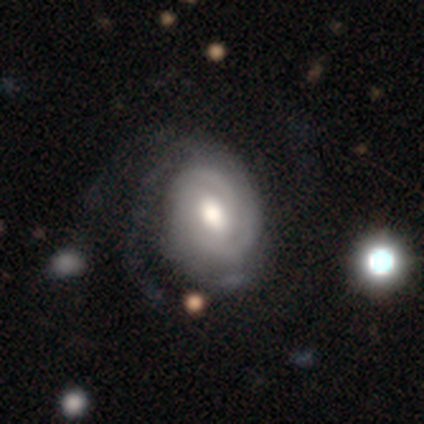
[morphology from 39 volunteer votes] A featured or disk galaxy (82%) with no bar (50%), 2 (45%) tight (58%) spiral arms (97%) and a moderate central bulge (62%).

Vote fractions:
- Smooth or featured? featured or disk: 82% / smooth: 15% / star or artifact: 3%
- Edge-on disk? no: 100% / yes: 0%
- Bar? no: 50% / weak: 44% / strong: 6%
- Spiral arms? yes: 97% / no: 3%
- Spiral winding? tight: 58% / medium: 32% / loose: 10%
- Spiral arm count? 2: 45% / 3: 26% / can't tell: 19% / 1: 3% / 4: 3% / more than 4: 3%
- Bulge size? moderate: 62% / large: 31% / dominant: 3% / small: 3% / none: 0%
- Merging? none: 29% / minor disturbance: 16% / major disturbance: 16% / merger: 0%